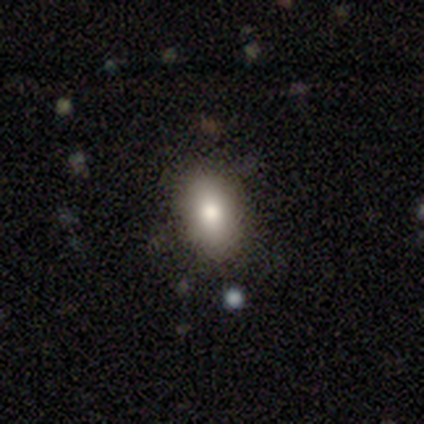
Smooth or featured: smooth — 100%
How rounded: in between — 80% (round — 20%)
Merging: none — 60% (minor disturbance — 40%)